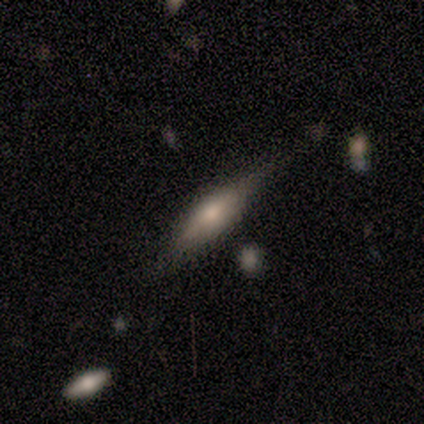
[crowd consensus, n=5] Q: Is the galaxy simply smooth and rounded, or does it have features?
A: featured or disk — 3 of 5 (60%).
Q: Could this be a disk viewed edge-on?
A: yes — 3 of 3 (100%).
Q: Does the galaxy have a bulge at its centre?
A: rounded — 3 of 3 (100%).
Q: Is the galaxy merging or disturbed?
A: none — 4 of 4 (100%).